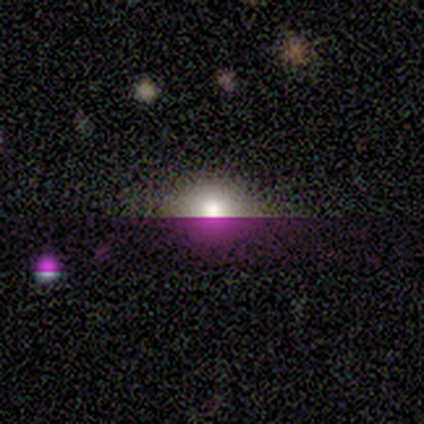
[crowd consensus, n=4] Overall: star or artifact (75%).